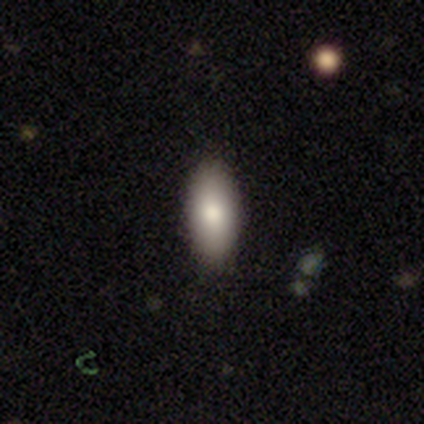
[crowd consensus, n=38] A smooth galaxy with no disk features (82%) that is in between round and cigar-shaped (87%).

Vote fractions:
- Smooth or featured? smooth: 82% / star or artifact: 16% / featured or disk: 3%
- How rounded? in between: 87% / cigar-shaped: 10% / round: 3%
- Merging? none: 84% / minor disturbance: 12% / major disturbance: 3% / merger: 0%